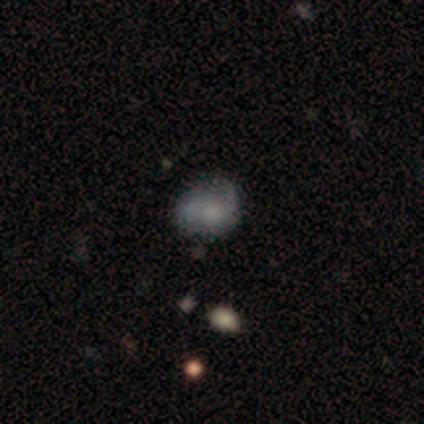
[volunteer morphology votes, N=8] Q: Smooth or featured?
A: smooth (62%); runner-up: featured or disk (25%)
Q: How rounded?
A: round (100%)
Q: Merging?
A: none (43%); tied with: major disturbance (43%)